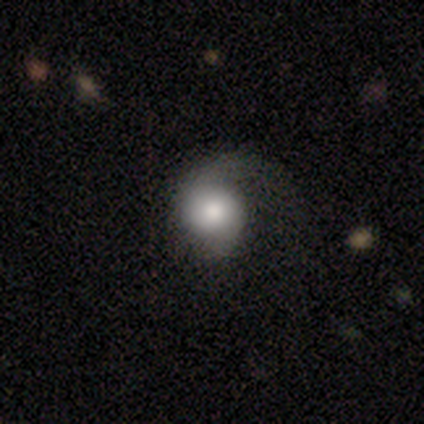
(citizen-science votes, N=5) smooth-or-featured: featured or disk: 60% | smooth: 20% | star or artifact: 20%
  disk-edge-on: no: 100% | yes: 0%
    bar: no: 100% | strong: 0% | weak: 0%
    has-spiral-arms: yes: 67% | no: 33%
      spiral-winding: tight: 50% (tied) | loose: 50% (tied) | medium: 0%
      spiral-arm-count: 1: 100% | 2: 0% | 3: 0% | 4: 0% | more than 4: 0% | can't tell: 0%
    bulge-size: large: 33% (tied) | moderate: 33% (tied) | small: 33% (tied) | dominant: 0% | none: 0%
  merging: none: 50% | minor disturbance: 25% | major disturbance: 25% | merger: 0%